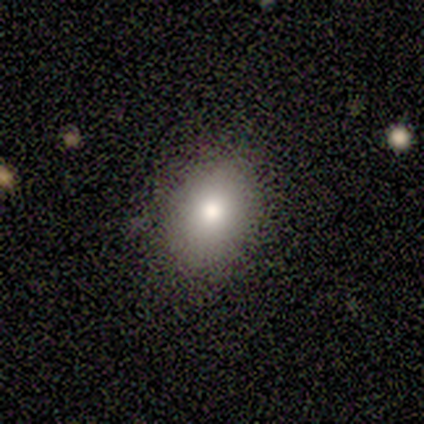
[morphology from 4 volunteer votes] Overall: smooth (100%). How rounded: in between (100%). Merging: none (75%).